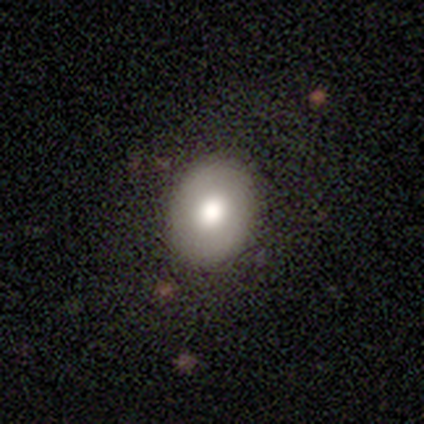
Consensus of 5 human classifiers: smooth 80%, star or artifact 20%, featured or disk 0%. Down the decision tree: how rounded — in between (75%); merging — none (100%).